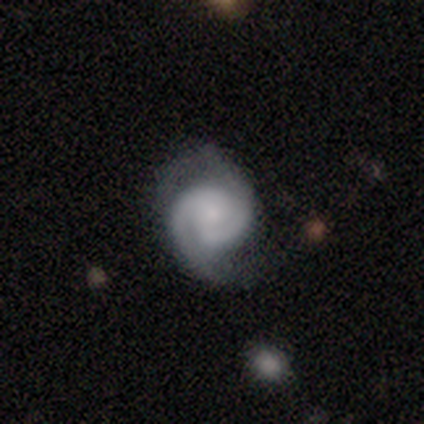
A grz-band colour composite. It shows a smooth galaxy with no disk features (60%) that is round (100%). Merging: none (60%).